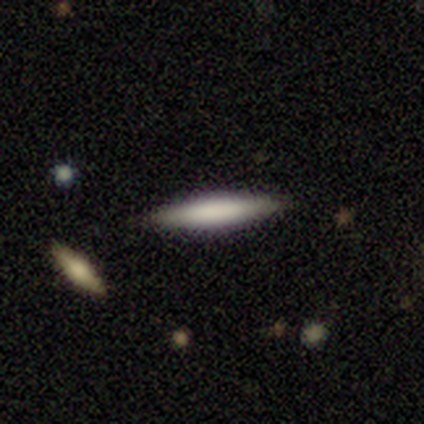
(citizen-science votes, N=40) Smooth or featured? 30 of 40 (75%) said smooth. How rounded? 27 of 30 (90%) said cigar-shaped. Merging? 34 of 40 (85%) said none.